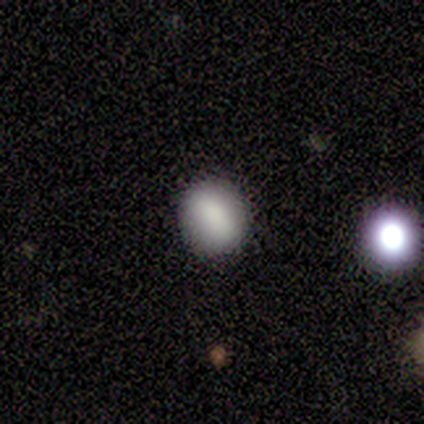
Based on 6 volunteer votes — Volunteers were most divided on "how rounded": in between: 67%, round: 33%, cigar-shaped: 0%. More confident: smooth or featured — smooth (100%); merging — none (83%).